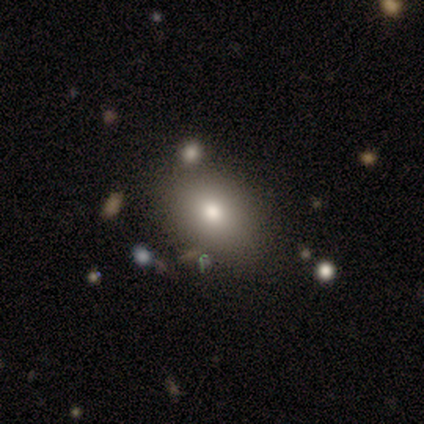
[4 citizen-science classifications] A smooth galaxy with no disk features (100%) that is in between round and cigar-shaped (75%).

Vote fractions:
- Smooth or featured? smooth: 100% / featured or disk: 0% / star or artifact: 0%
- How rounded? in between: 75% / round: 25% / cigar-shaped: 0%
- Merging? none: 75% / minor disturbance: 25% / major disturbance: 0% / merger: 0%